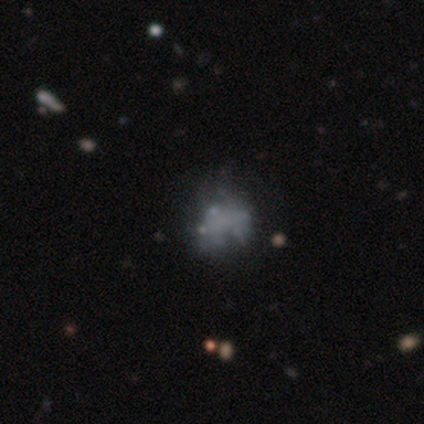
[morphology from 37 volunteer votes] Q: Smooth or featured?
A: featured or disk (57%); runner-up: smooth (22%)
Q: Edge-on disk?
A: no (95%); runner-up: yes (5%)
Q: Bar?
A: no (100%)
Q: Spiral arms?
A: no (95%); runner-up: yes (5%)
Q: Bulge size?
A: none (80%); runner-up: moderate (10%)
Q: Merging?
A: none (45%); runner-up: major disturbance (28%)